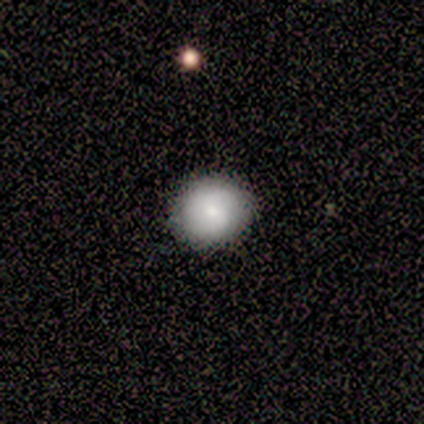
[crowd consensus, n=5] smooth_or_featured: smooth (p=1.00)
how_rounded: round (p=1.00)
merging: none (p=0.80) [alt: major disturbance p=0.20]